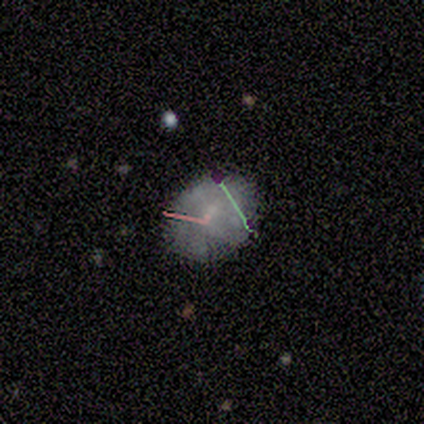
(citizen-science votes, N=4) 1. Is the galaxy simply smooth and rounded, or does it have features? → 50% star or artifact, 25% smooth, 25% featured or disk.